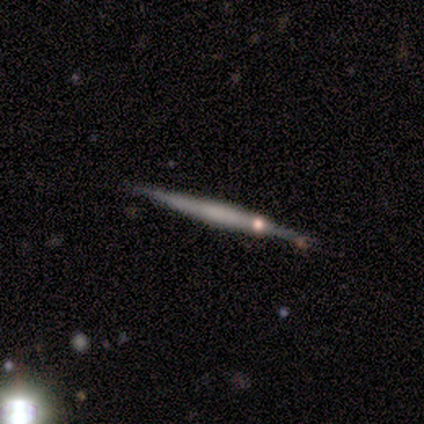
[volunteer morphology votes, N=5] type=featured or disk (60%); edge-on=yes (100%); edge-on bulge=rounded (67%); merging=none (80%).